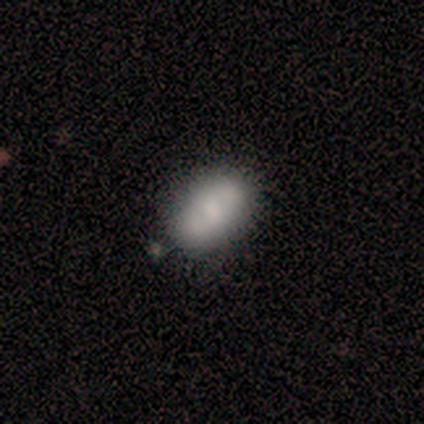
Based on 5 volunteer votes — A smooth galaxy with no disk features (60%) that is in between round and cigar-shaped (100%).

Vote fractions:
- Smooth or featured? smooth: 60% / featured or disk: 20% / star or artifact: 20%
- How rounded? in between: 100% / round: 0% / cigar-shaped: 0%
- Merging? none: 75% / merger: 25% / minor disturbance: 0% / major disturbance: 0%